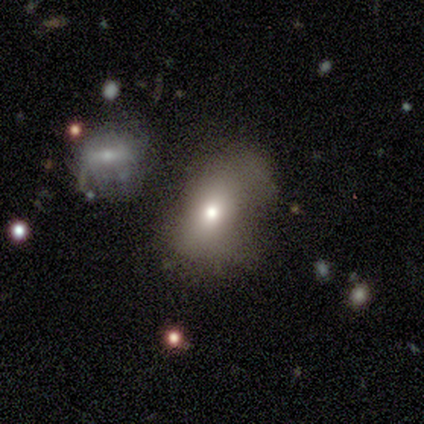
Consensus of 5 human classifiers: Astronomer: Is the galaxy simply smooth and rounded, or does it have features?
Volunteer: smooth — 80%.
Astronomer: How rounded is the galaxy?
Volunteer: in between — 100%.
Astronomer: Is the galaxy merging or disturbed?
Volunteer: major disturbance — 60%.